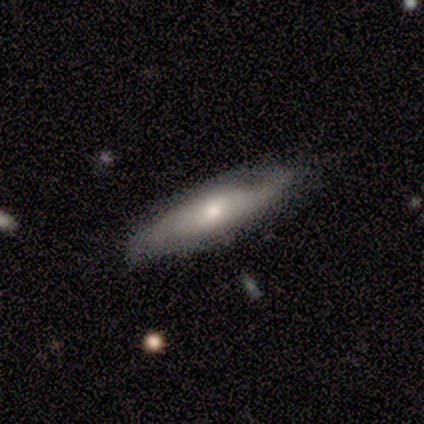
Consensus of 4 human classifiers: A smooth galaxy with no disk features (50%) that is in between round and cigar-shaped (50%, tied with cigar-shaped).

Vote fractions:
- Smooth or featured? smooth: 50% / featured or disk: 25% / star or artifact: 25%
- How rounded? in between: 50% (tied) / cigar-shaped: 50% (tied) / round: 0%
- Merging? none: 100% / minor disturbance: 0% / major disturbance: 0% / merger: 0%